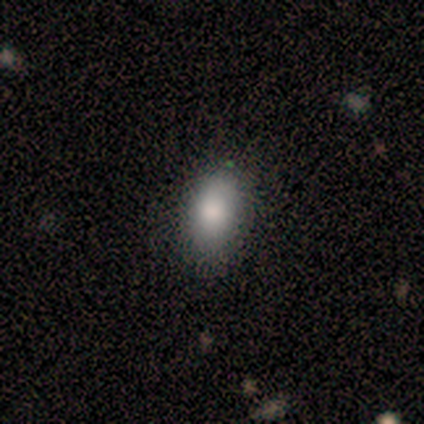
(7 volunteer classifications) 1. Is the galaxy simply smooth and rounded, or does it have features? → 71% smooth, 29% featured or disk, 0% star or artifact.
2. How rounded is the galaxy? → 80% in between, 20% round, 0% cigar-shaped.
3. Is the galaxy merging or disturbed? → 86% none, 14% minor disturbance, 0% major disturbance, 0% merger.